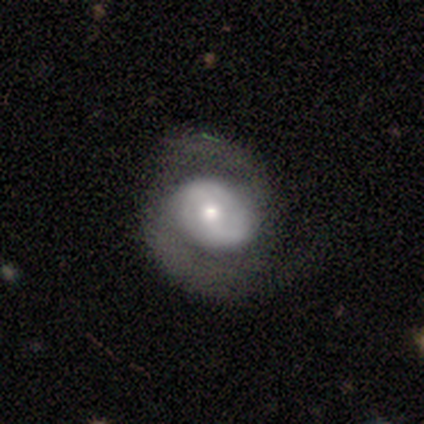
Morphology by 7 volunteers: type=featured or disk (100%); edge-on=no (100%); bar=weak (57%); spiral arms=yes (57%); winding=medium (75%); arm count=2 (100%); bulge=small (43%); merging=none (57%).